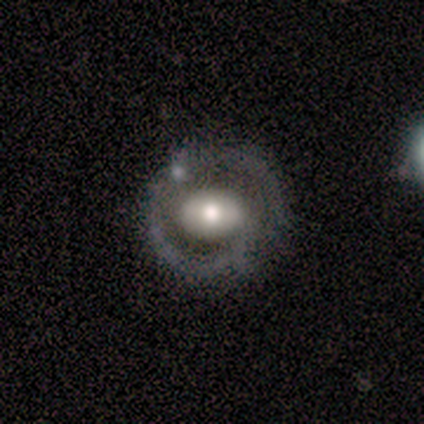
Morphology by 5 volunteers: This appears to be a featured or disk galaxy (80%) with no bar (50%), 1 (50%, tied with 2) tight (50%, tied with loose) spiral arms (50%, tied with no) and a moderate central bulge (100%). Merging: none (40%, tied with minor disturbance).